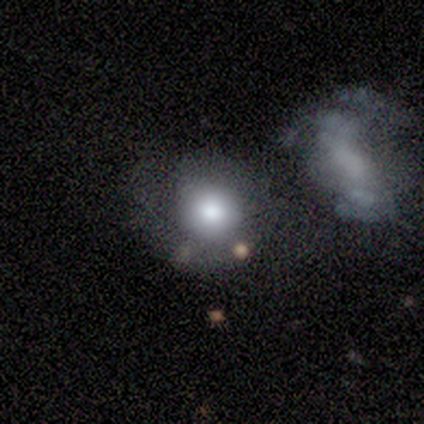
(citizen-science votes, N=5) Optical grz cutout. It shows a smooth galaxy with no disk features (60%) that is round (100%). Merging: none (40%, tied with minor disturbance).